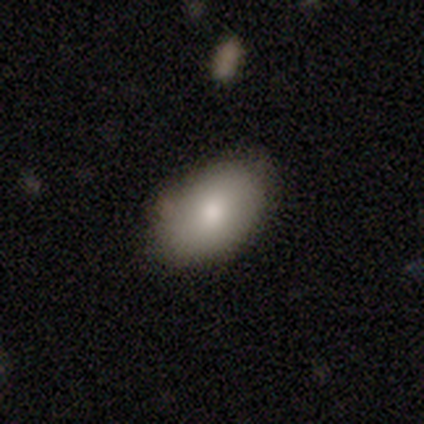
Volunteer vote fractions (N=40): smooth_or_featured: smooth (p=0.82) [alt: featured or disk p=0.12]
how_rounded: in between (p=0.91) [alt: round p=0.09]
merging: none (p=0.74) [alt: minor disturbance p=0.18]